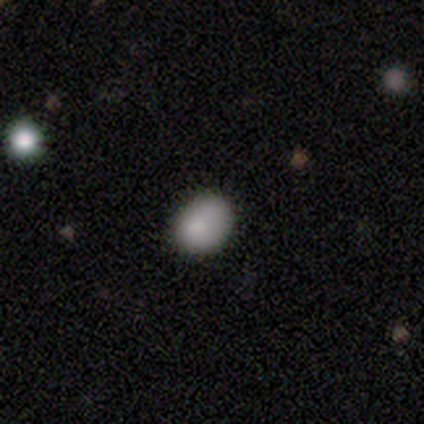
Morphology: type=smooth (75%); roundness=in between (100%); merging=none (100%).